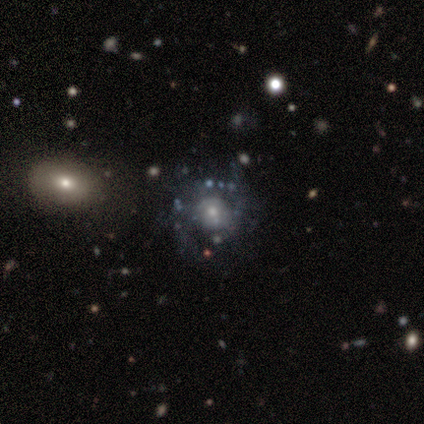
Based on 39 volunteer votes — Q: Smooth or featured?
A: featured or disk (56%); runner-up: smooth (26%)
Q: Edge-on disk?
A: no (100%)
Q: Bar?
A: no (77%); runner-up: weak (18%)
Q: Spiral arms?
A: no (68%); runner-up: yes (32%)
Q: Bulge size?
A: small (50%); runner-up: moderate (41%)
Q: Merging?
A: none (59%); runner-up: minor disturbance (19%)